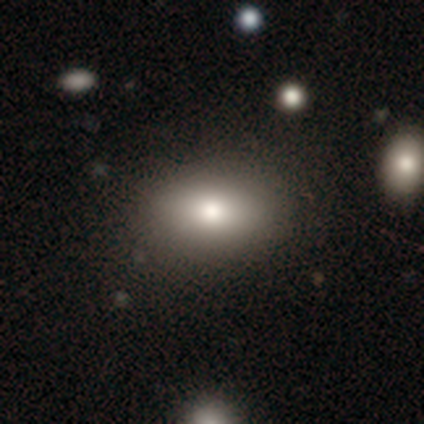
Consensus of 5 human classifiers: Smooth or featured? 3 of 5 (60%) said smooth. How rounded? 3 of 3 (100%) said in between. Merging? 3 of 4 (75%) said none.